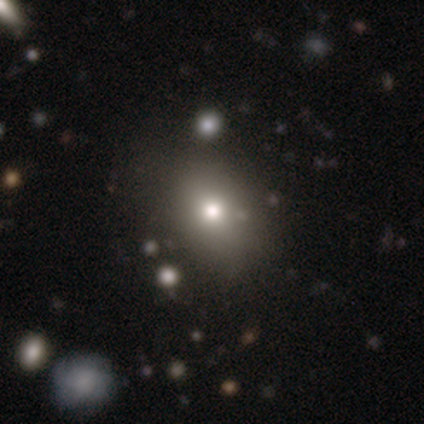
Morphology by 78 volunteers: type=smooth (81%); roundness=round (51%); merging=none (37%).